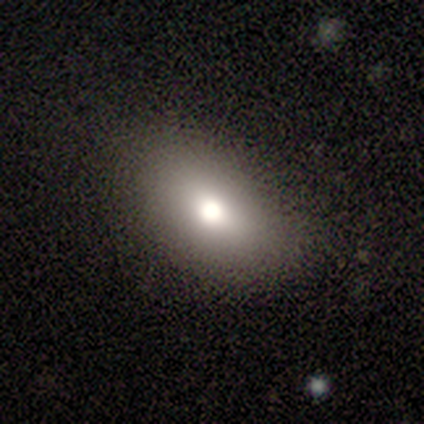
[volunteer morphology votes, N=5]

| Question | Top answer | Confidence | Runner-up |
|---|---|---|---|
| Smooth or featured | smooth | 100% | — |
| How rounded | in between | 80% | round (20%) |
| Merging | none | 80% | minor disturbance (20%) |